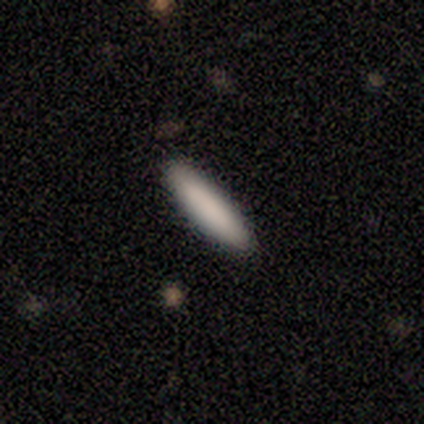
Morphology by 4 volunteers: A smooth galaxy with no disk features (75%) that is cigar-shaped (100%).

Vote fractions:
- Smooth or featured? smooth: 75% / featured or disk: 25% / star or artifact: 0%
- How rounded? cigar-shaped: 100% / round: 0% / in between: 0%
- Merging? none: 100% / minor disturbance: 0% / major disturbance: 0% / merger: 0%